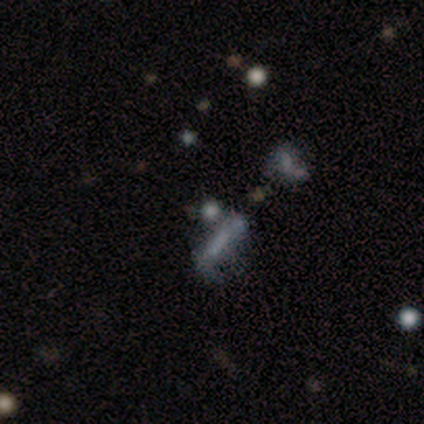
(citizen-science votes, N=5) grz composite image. It shows a star or artifact, not a galaxy (60%).